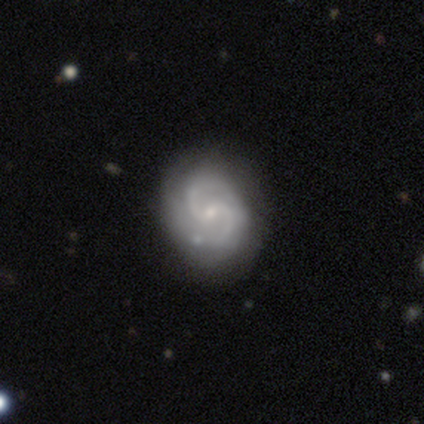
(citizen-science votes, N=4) A featured or disk galaxy (75%) with a weak bar (67%), 2 (100%) medium (100%) spiral arms (100%) and a small central bulge (67%). Merging: none (100%).